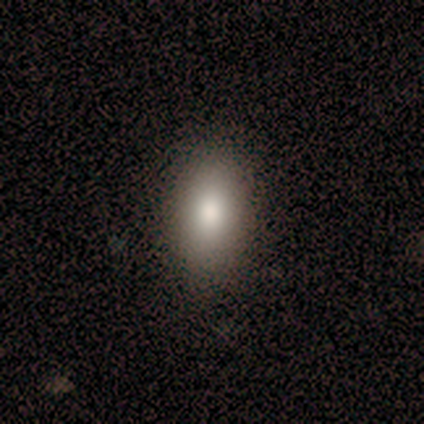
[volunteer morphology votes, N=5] smooth_or_featured: smooth (p=0.80) [alt: featured or disk p=0.20]
how_rounded: in between (p=0.75) [alt: round p=0.25]
merging: none (p=0.80) [alt: minor disturbance p=0.20]